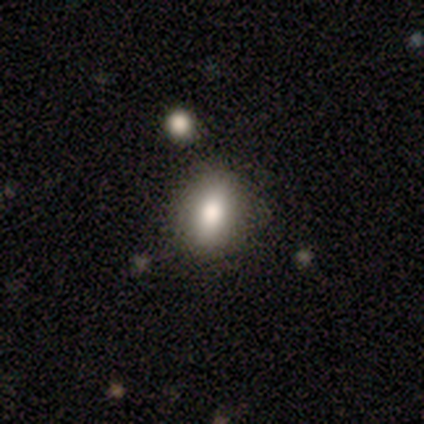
Smooth or featured? 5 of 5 (100%) said smooth. How rounded? 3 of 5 (60%) said round. Merging? 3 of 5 (60%) said none.